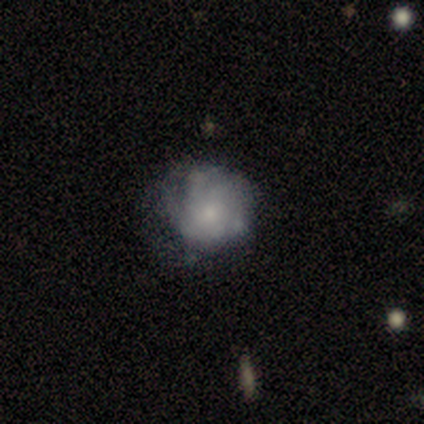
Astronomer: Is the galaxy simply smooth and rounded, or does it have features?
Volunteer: featured or disk — 88%.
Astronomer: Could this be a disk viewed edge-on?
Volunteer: no — 100%.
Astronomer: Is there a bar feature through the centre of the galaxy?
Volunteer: no — 100%.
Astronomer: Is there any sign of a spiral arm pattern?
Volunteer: no — 71%.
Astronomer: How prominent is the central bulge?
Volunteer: small — 86%.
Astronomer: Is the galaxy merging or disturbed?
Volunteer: none — 50%.